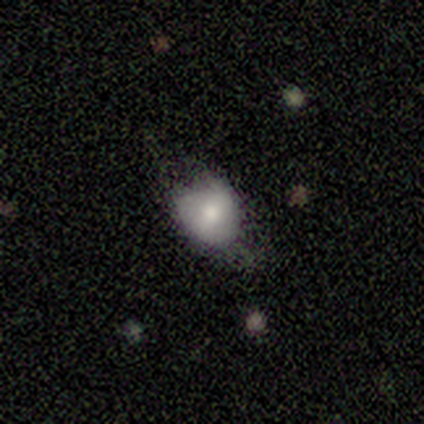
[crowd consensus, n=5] Smooth or featured? 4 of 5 (80%) said smooth. How rounded? 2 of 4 (50%, tied with in between) said round. Merging? 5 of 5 (100%) said minor disturbance.